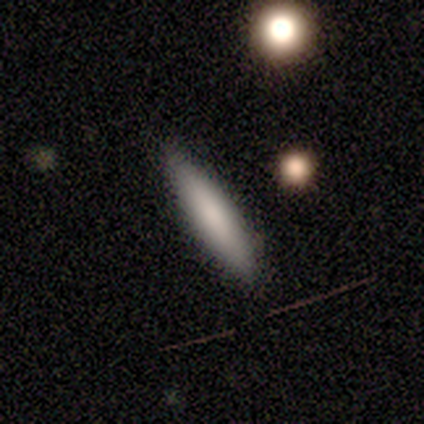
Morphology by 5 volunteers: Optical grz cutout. It shows a smooth galaxy with no disk features (100%) that is cigar-shaped (60%). Merging: none (80%).